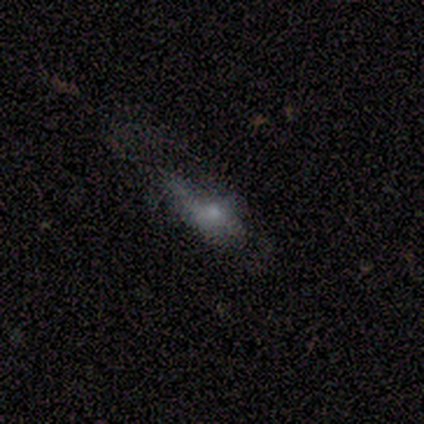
smooth-or-featured: featured or disk: 60% | star or artifact: 40% | smooth: 0%
  disk-edge-on: no: 100% | yes: 0%
    bar: no: 100% | strong: 0% | weak: 0%
    has-spiral-arms: no: 67% | yes: 33%
    bulge-size: moderate: 67% | small: 33% | dominant: 0% | large: 0% | none: 0%
  merging: major disturbance: 100% | none: 0% | minor disturbance: 0% | merger: 0%